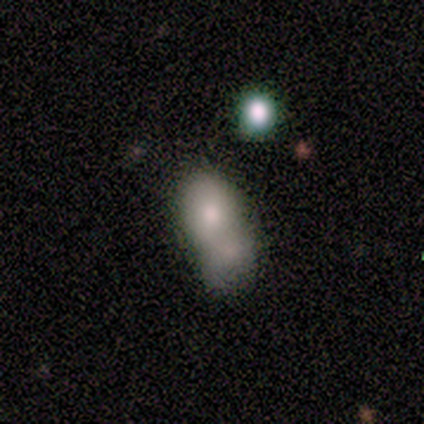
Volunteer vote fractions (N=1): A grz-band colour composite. It shows a smooth galaxy with no disk features (100%) that is in between round and cigar-shaped (100%). Merging: merger (100%).